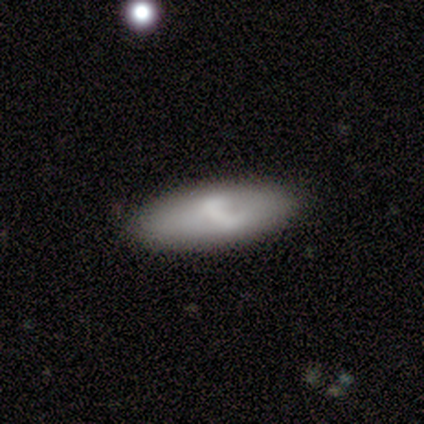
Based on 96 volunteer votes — smooth_or_featured: smooth (p=0.60) [alt: featured or disk p=0.31]
how_rounded: in between (p=0.60) [alt: cigar-shaped p=0.38]
merging: none (p=0.81) [alt: minor disturbance p=0.15]